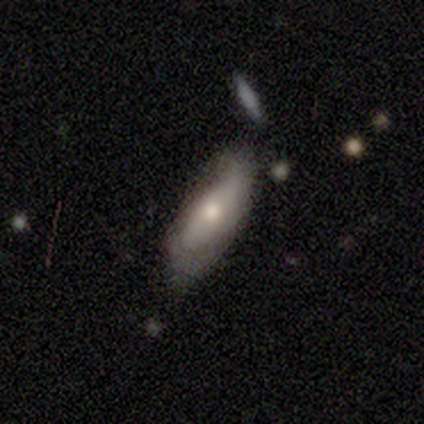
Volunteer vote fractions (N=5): This appears to be a smooth galaxy with no disk features (60%) that is in between round and cigar-shaped (67%). Merging: minor disturbance (80%).